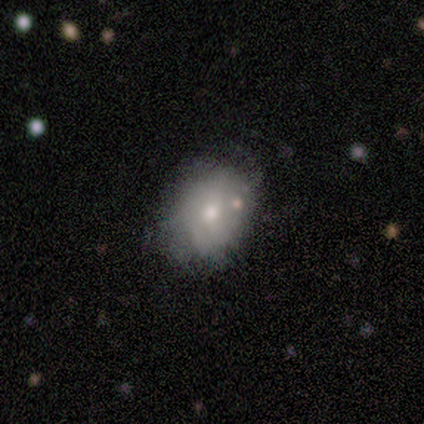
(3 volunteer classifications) This appears to be a smooth galaxy with no disk features (100%) that is in between round and cigar-shaped (67%). Merging: none (67%).